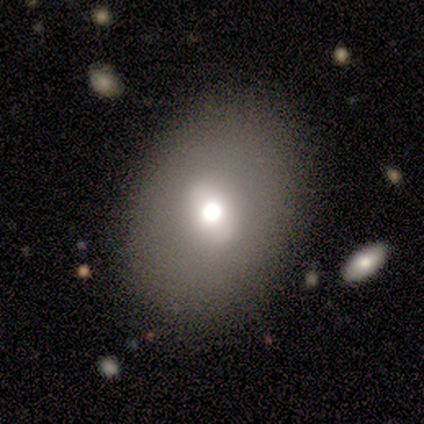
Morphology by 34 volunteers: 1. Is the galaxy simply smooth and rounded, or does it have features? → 62% smooth, 26% featured or disk, 12% star or artifact.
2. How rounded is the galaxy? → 57% in between, 43% round, 0% cigar-shaped.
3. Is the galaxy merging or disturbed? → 73% none, 13% minor disturbance, 10% major disturbance, 3% merger.